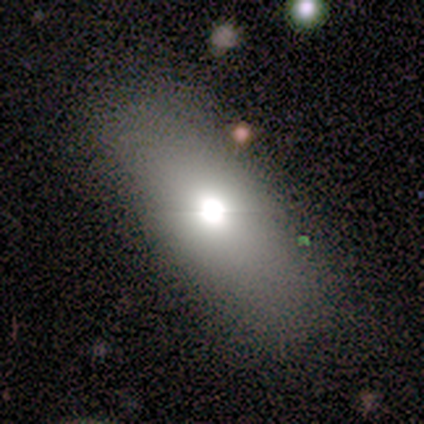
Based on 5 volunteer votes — Volunteers were most divided on "how rounded": in between: 60%, cigar-shaped: 40%, round: 0%. More confident: smooth or featured — smooth (100%); merging — none (100%).